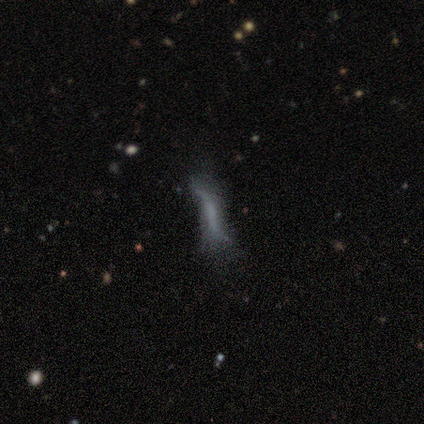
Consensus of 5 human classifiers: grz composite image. It shows a smooth galaxy with no disk features (60%) that is cigar-shaped (100%). Merging: minor disturbance (50%).